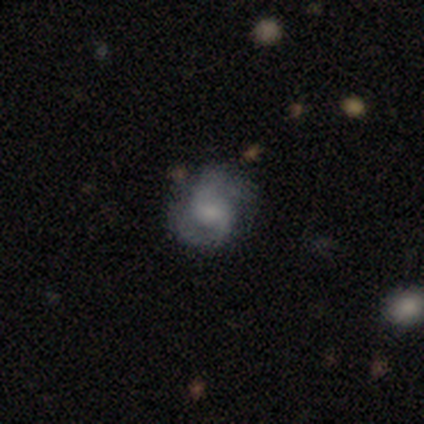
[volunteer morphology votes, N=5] Volunteers were most divided on "spiral winding" (3-way tie): tight: 33%, medium: 33%, loose: 33%. More confident: edge-on disk — no (100%); spiral arms — yes (100%); bulge size — small (100%); bar — weak (67%); spiral arm count — 1 (67%); smooth or featured — featured or disk (60%); merging — none (50%).